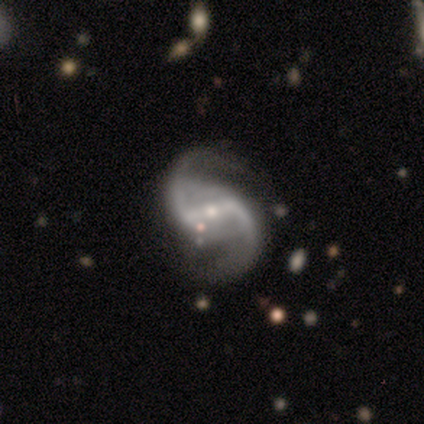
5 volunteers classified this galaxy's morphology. Smooth or featured? featured or disk (100%)
Edge-on disk? no (100%)
Bar? strong (60%)
Spiral arms? yes (100%)
Spiral winding? loose (80%)
Spiral arm count? 2 (80%)
Bulge size? small (60%)
Merging? none (60%)